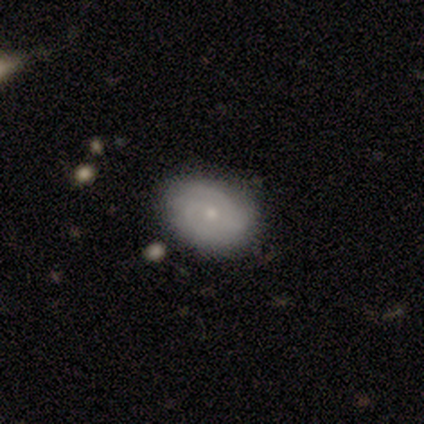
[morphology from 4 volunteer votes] A smooth galaxy with no disk features (100%) that is in between round and cigar-shaped (100%). Merging: none (50%).